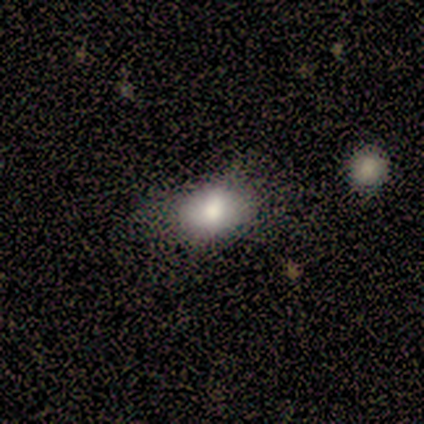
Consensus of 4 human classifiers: This appears to be a smooth galaxy with no disk features (100%) that is in between round and cigar-shaped (75%). Merging: none (50%).